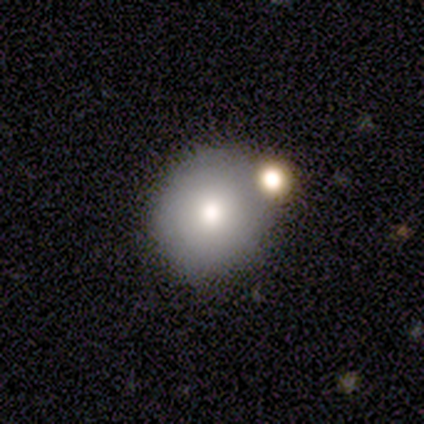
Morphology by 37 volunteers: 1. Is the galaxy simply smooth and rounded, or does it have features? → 78% smooth, 16% featured or disk, 5% star or artifact.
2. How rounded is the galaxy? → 76% round, 24% in between, 0% cigar-shaped.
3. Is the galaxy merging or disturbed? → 69% none, 17% merger, 11% minor disturbance, 3% major disturbance.